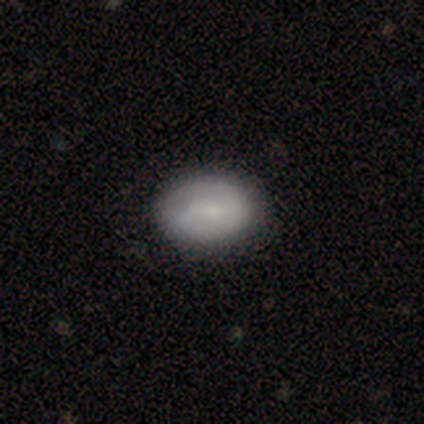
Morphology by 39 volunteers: This appears to be a smooth galaxy with no disk features (51%) that is in between round and cigar-shaped (85%). Merging: none (89%).